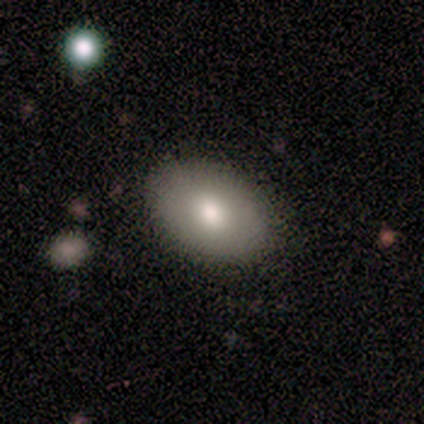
Consensus on every question: smooth or featured — smooth (100%); how rounded — in between (100%); merging — none (100%).